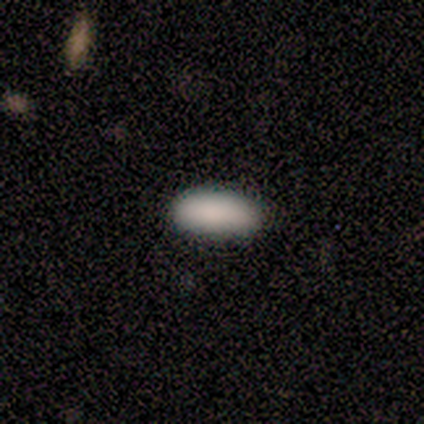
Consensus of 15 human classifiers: A smooth galaxy with no disk features (100%) that is in between round and cigar-shaped (80%). Merging: none (93%).